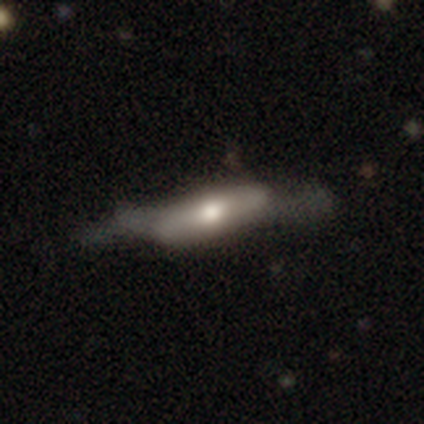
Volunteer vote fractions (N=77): Volunteers were most divided on "merging": minor disturbance: 26%, major disturbance: 21%, none: 17%, merger: 1%. More confident: edge-on bulge — rounded (83%); edge-on disk — yes (59%); smooth or featured — featured or disk (53%).